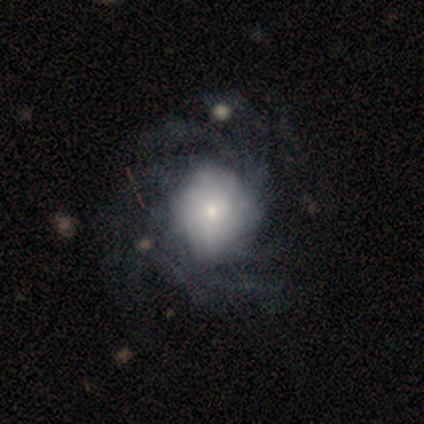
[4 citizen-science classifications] Smooth or featured: featured or disk — 100%
Edge-on disk: no — 100%
Bar: no — 75% (strong — 25%)
Spiral arms: yes — 100%
Spiral winding: loose — 50% (tight — 25%)
Spiral arm count: more than 4 — 50% (4 — 25%)
Bulge size: dominant — 25% (tied with large — 25%; moderate — 25%; small — 25%)
Merging: none — 75% (minor disturbance — 25%)